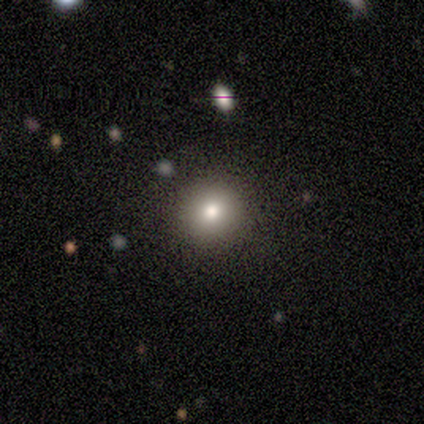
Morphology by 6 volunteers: Smooth or featured? smooth (100%)
How rounded? round (83%)
Merging? none (83%)